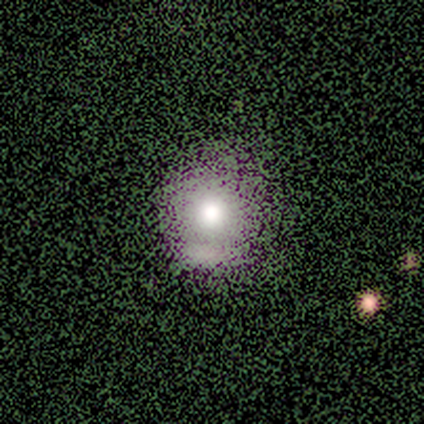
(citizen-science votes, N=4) Smooth or featured?
  - smooth: 75% *
  - featured or disk: 25%
  - star or artifact: 0%
How rounded?
  - round: 100% *
  - in between: 0%
  - cigar-shaped: 0%
Merging?
  - none: 50% * (tied)
  - minor disturbance: 50% * (tied)
  - major disturbance: 0%
  - merger: 0%